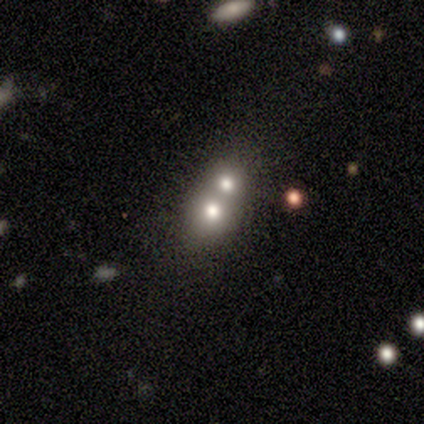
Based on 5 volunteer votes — Morphology: type=smooth (40%, tied with featured or disk); roundness=round (50%, tied with in between); merging=merger (100%).